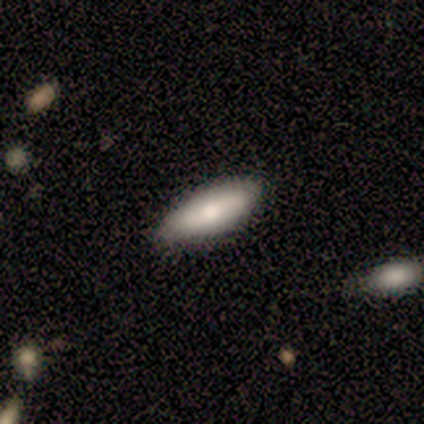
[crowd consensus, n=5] smooth-or-featured: smooth: 80% | featured or disk: 20% | star or artifact: 0%
  how-rounded: in between: 75% | cigar-shaped: 25% | round: 0%
  merging: none: 60% | minor disturbance: 20% | major disturbance: 20% | merger: 0%